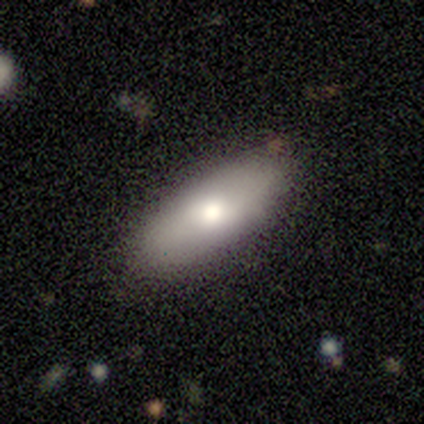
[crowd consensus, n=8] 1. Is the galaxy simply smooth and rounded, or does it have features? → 75% smooth, 25% featured or disk, 0% star or artifact.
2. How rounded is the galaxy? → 100% in between, 0% round, 0% cigar-shaped.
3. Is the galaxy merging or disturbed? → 75% none, 25% minor disturbance, 0% major disturbance, 0% merger.